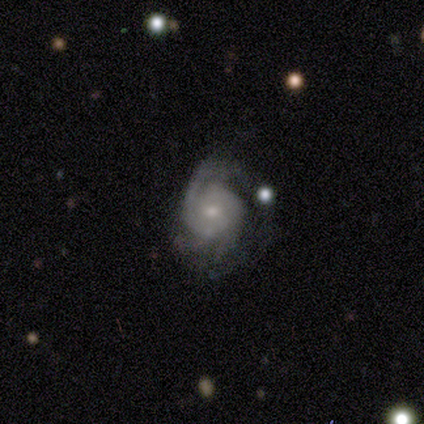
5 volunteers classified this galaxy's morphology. This appears to be a featured or disk galaxy (100%) with no bar (80%), 2 (40%, tied with can't tell) tight (80%) spiral arms (100%) and a small central bulge (80%). Merging: minor disturbance (40%, tied with major disturbance).